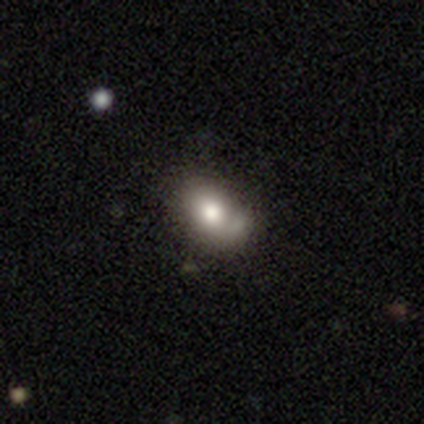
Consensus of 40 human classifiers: Morphology: type=smooth (62%); roundness=in between (76%); merging=none (57%).